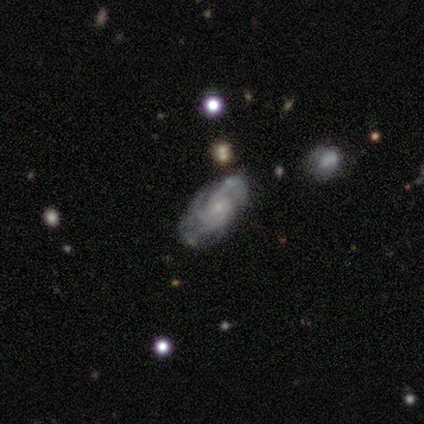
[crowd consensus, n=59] Q: Smooth or featured?
A: featured or disk (80%); runner-up: smooth (17%)
Q: Edge-on disk?
A: no (98%); runner-up: yes (2%)
Q: Bar?
A: no (85%); runner-up: weak (13%)
Q: Spiral arms?
A: yes (100%)
Q: Spiral winding?
A: tight (59%); runner-up: medium (37%)
Q: Spiral arm count?
A: 3 (54%); runner-up: can't tell (15%)
Q: Bulge size?
A: small (91%); runner-up: moderate (4%)
Q: Merging?
A: none (49%); runner-up: minor disturbance (28%)